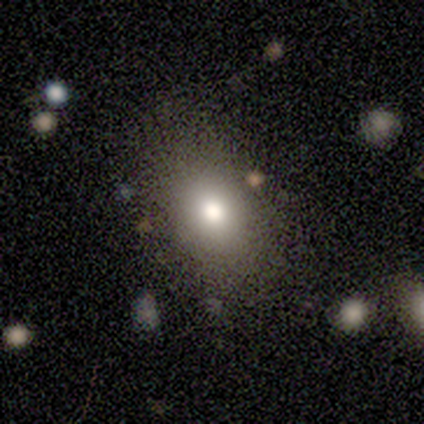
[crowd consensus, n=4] smooth_or_featured: smooth (p=0.75) [alt: featured or disk p=0.25]
how_rounded: in between (p=0.67) [alt: round p=0.33]
merging: none (p=1.00)